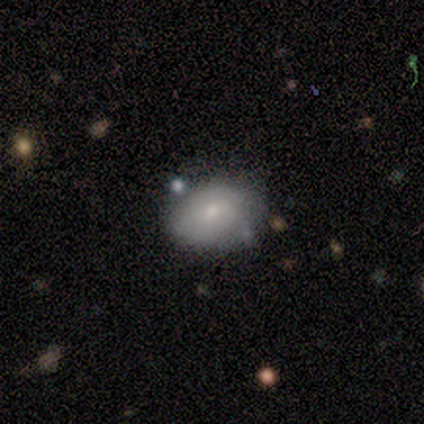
This is likely a featured or disk galaxy (60%). It is clearly not viewed edge-on (100%). Bar: clearly no (100%). Spiral arm pattern: clearly no (100%). Central bulge: likely small (67%). Merging: likely none (60%).